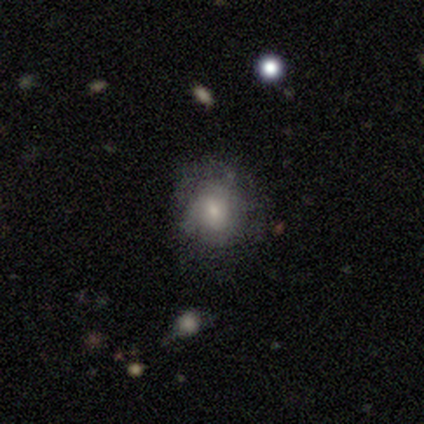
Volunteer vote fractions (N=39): Smooth or featured? 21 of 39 (54%) said smooth. How rounded? 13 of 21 (62%) said round. Merging? 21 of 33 (64%) said none.